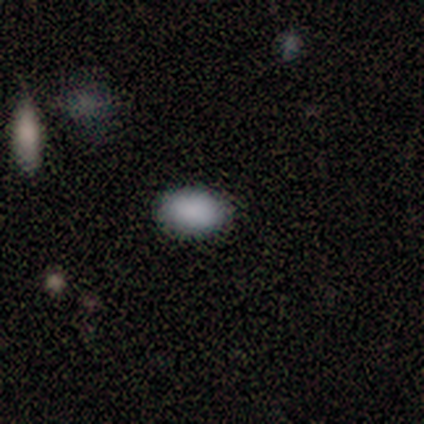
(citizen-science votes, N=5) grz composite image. It shows a smooth galaxy with no disk features (100%) that is in between round and cigar-shaped (100%). Merging: none (80%).